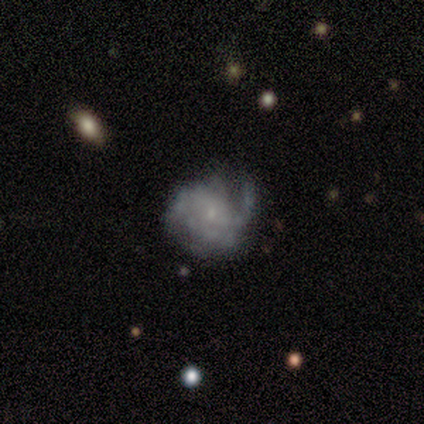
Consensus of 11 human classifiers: smooth-or-featured: featured or disk: 82% | smooth: 18% | star or artifact: 0%
  disk-edge-on: no: 100% | yes: 0%
    bar: no: 100% | strong: 0% | weak: 0%
    has-spiral-arms: yes: 78% | no: 22%
      spiral-winding: tight: 71% | medium: 14% | loose: 14%
      spiral-arm-count: 1: 29% (tied) | 2: 29% (tied) | can't tell: 29% (tied) | 4: 14% | 3: 0% | more than 4: 0%
    bulge-size: small: 78% | none: 22% | dominant: 0% | large: 0% | moderate: 0%
  merging: none: 82% | minor disturbance: 18% | major disturbance: 0% | merger: 0%